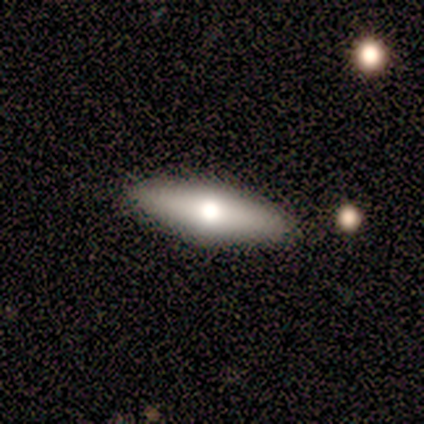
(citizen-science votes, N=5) This is clearly a smooth galaxy (80%). How rounded: possibly in between (50%, tied with cigar-shaped). Merging: clearly none (80%).